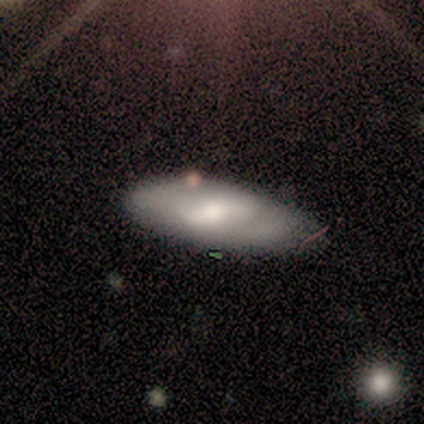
This is clearly a smooth galaxy (83%). How rounded: clearly in between (100%). Merging: likely minor disturbance (67%).